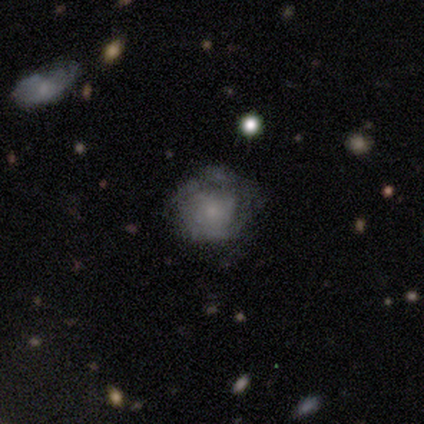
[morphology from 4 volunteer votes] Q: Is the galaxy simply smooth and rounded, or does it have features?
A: smooth — 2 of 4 (50%).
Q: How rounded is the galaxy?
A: round — 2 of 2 (100%).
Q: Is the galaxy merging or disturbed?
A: minor disturbance — 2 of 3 (67%).